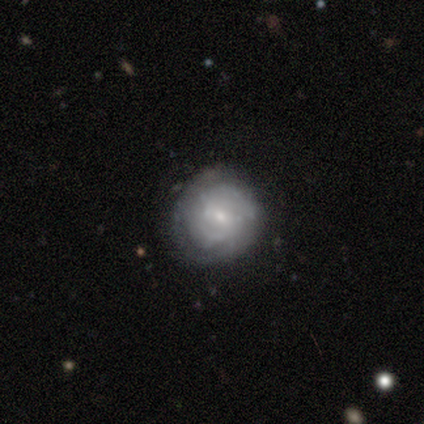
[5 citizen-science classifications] Smooth or featured? 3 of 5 (60%) said featured or disk. Edge-on disk? 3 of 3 (100%) said no. Bar? 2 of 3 (67%) said no. Spiral arms? 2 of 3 (67%) said no. Bulge size? 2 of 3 (67%) said moderate. Merging? 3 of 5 (60%) said none.